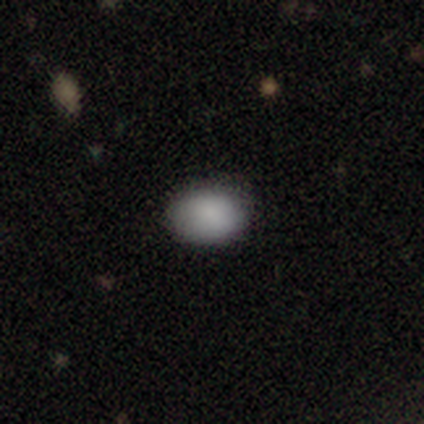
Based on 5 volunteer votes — smooth-or-featured: smooth: 100% | featured or disk: 0% | star or artifact: 0%
  how-rounded: in between: 80% | round: 20% | cigar-shaped: 0%
  merging: none: 60% | minor disturbance: 40% | major disturbance: 0% | merger: 0%